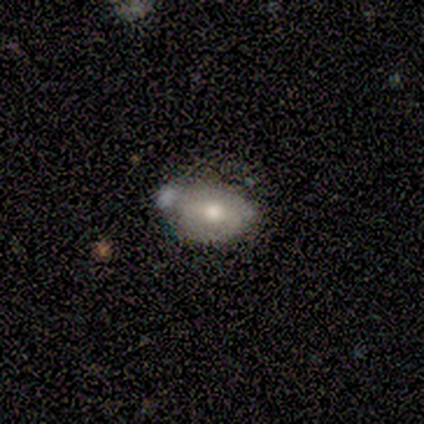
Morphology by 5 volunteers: Smooth or featured? 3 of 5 (60%) said featured or disk. Edge-on disk? 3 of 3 (100%) said no. Bar? 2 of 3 (67%) said no. Spiral arms? 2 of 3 (67%) said no. Bulge size? 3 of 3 (100%) said moderate. Merging? 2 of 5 (40%) said major disturbance.